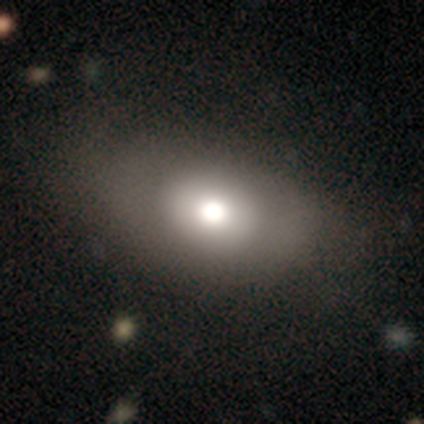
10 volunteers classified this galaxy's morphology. Overall: smooth (80%). How rounded: in between (62%; cigar-shaped 25%). Merging: none (38%, tied with minor disturbance).